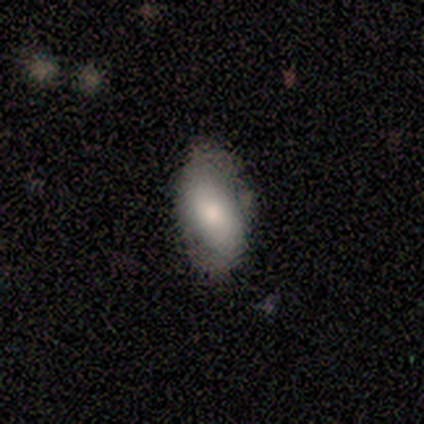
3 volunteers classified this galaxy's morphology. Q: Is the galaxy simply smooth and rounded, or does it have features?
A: smooth — 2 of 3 (67%).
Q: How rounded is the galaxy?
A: in between — 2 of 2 (100%).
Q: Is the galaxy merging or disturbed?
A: none — 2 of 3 (67%).